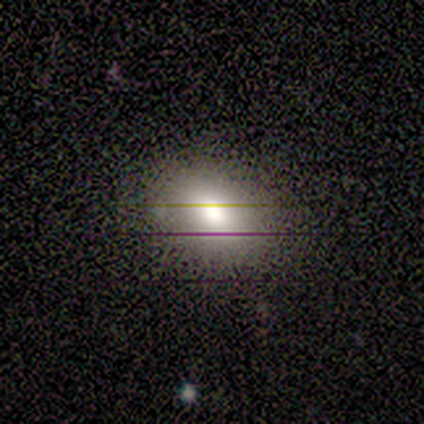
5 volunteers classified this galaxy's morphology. Smooth or featured? smooth (40%, tied with star or artifact)
How rounded? round (100%)
Merging? none (67%)